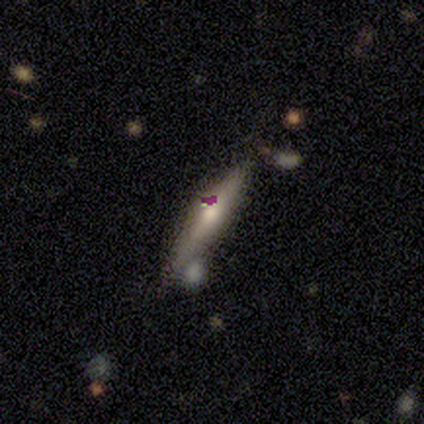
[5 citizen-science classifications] Smooth or featured: featured or disk — 60% (smooth — 20%)
Edge-on disk: yes — 100%
Edge-on bulge: rounded — 67% (none — 33%)
Merging: none — 100%